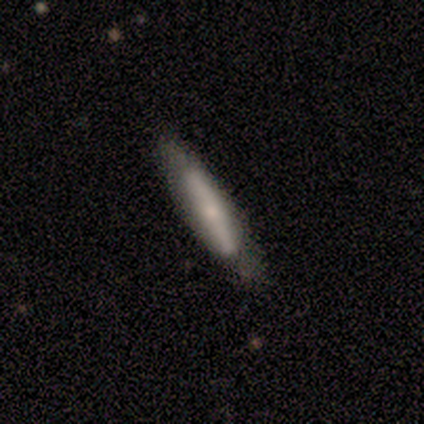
Smooth or featured? 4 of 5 (80%) said smooth. How rounded? 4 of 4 (100%) said cigar-shaped. Merging? 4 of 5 (80%) said none.